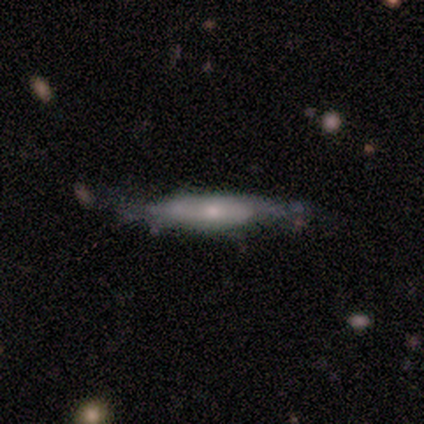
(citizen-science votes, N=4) smooth-or-featured: smooth: 75% | featured or disk: 25% | star or artifact: 0%
  how-rounded: in between: 100% | round: 0% | cigar-shaped: 0%
  merging: none: 50% (tied) | minor disturbance: 50% (tied) | major disturbance: 0% | merger: 0%